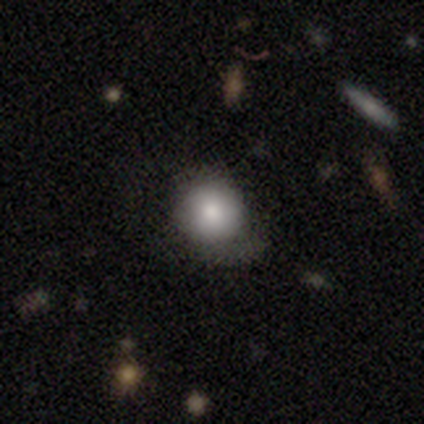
A smooth galaxy with no disk features (78%) that is round (84%).

Vote fractions:
- Smooth or featured? smooth: 78% / featured or disk: 15% / star or artifact: 8%
- How rounded? round: 84% / in between: 16% / cigar-shaped: 0%
- Merging? none: 43% / minor disturbance: 30% / major disturbance: 27% / merger: 0%